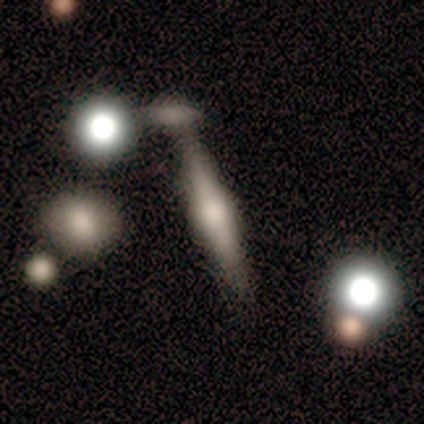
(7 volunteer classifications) featured or disk 71%, smooth 29%, star or artifact 0%. Down the decision tree: edge-on disk — yes (100%); edge-on bulge — rounded (80%); merging — none (57%).